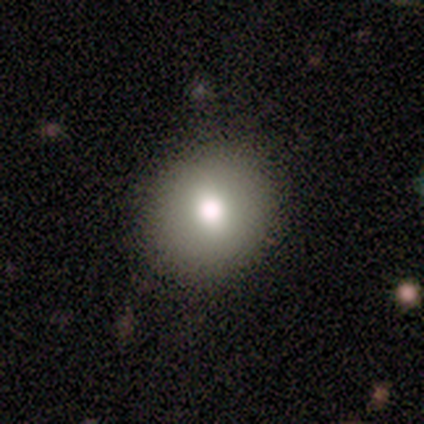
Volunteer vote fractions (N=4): Smooth or featured? smooth (75%)
How rounded? round (67%)
Merging? none (67%)